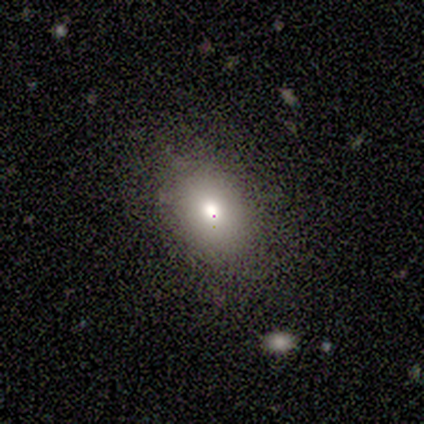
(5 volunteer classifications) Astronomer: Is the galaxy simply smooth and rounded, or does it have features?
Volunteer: smooth — 100%.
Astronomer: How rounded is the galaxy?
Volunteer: round — 60% (runner-up: in between, 40%).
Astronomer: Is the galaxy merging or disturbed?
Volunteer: none — 80%.